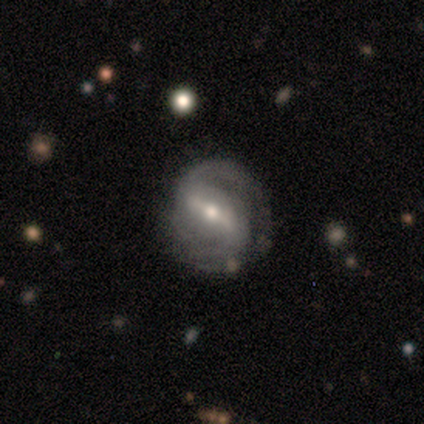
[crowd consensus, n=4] Morphology: type=featured or disk (100%); edge-on=no (100%); bar=strong (50%, tied with weak); spiral arms=yes (100%); winding=tight (50%, tied with medium); arm count=2 (75%); bulge=moderate (50%, tied with small); merging=none (75%).